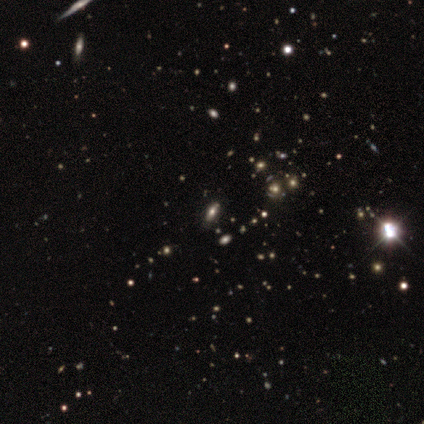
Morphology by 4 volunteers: Q: Smooth or featured?
A: star or artifact (50%); runner-up: smooth (25%)